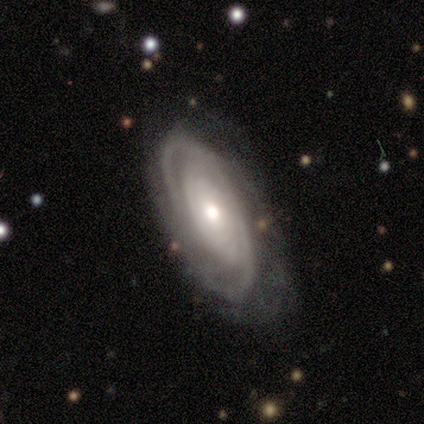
smooth-or-featured: featured or disk: 85% | smooth: 11% | star or artifact: 4%
  disk-edge-on: no: 93% | yes: 7%
    bar: no: 77% | weak: 21% | strong: 2%
    has-spiral-arms: yes: 86% | no: 14%
      spiral-winding: tight: 68% | medium: 24% | loose: 8%
      spiral-arm-count: can't tell: 41% | 2: 32% | 4: 14% | 3: 8% | 1: 3% | more than 4: 3%
    bulge-size: moderate: 53% | small: 35% | large: 9% | none: 2% | dominant: 0%
  merging: none: 69% | minor disturbance: 21% | major disturbance: 8% | merger: 2%